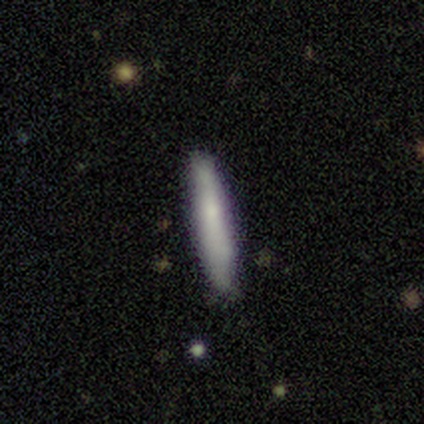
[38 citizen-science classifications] A smooth galaxy with no disk features (66%) that is cigar-shaped (96%).

Vote fractions:
- Smooth or featured? smooth: 66% / featured or disk: 24% / star or artifact: 11%
- How rounded? cigar-shaped: 96% / in between: 4% / round: 0%
- Merging? none: 74% / minor disturbance: 21% / merger: 6% / major disturbance: 0%